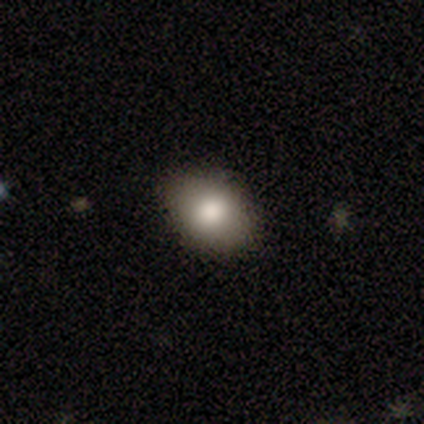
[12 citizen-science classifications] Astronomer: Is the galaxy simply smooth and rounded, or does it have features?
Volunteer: smooth — 83%.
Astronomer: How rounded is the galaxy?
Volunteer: in between — 60% (runner-up: round, 40%).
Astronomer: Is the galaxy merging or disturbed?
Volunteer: none — 100%.